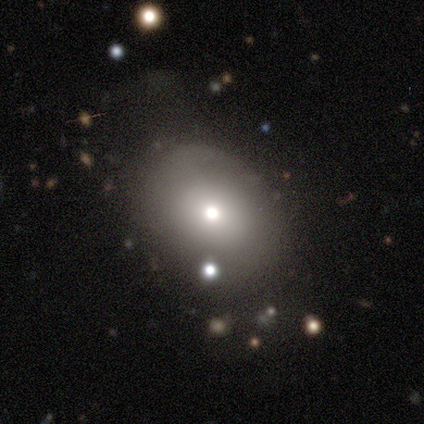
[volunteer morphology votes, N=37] A smooth galaxy with no disk features (78%) that is in between round and cigar-shaped (62%).

Vote fractions:
- Smooth or featured? smooth: 78% / featured or disk: 14% / star or artifact: 8%
- How rounded? in between: 62% / round: 34% / cigar-shaped: 3%
- Merging? none: 50% / minor disturbance: 38% / major disturbance: 9% / merger: 3%